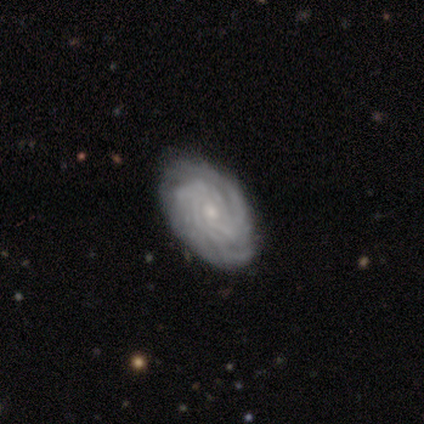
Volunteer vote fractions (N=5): featured or disk 100%, smooth 0%, star or artifact 0%. Down the decision tree: edge-on disk — no (100%); bar — no (80%); spiral arms — yes (100%); spiral arm count — can't tell (40%); spiral winding — tight (100%); bulge size — moderate (60%); merging — none (80%).